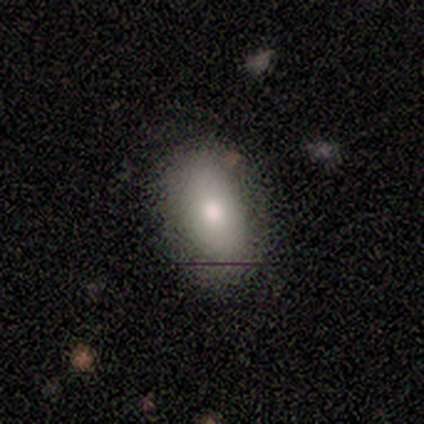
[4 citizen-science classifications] Overall: smooth (75%). How rounded: in between (100%). Merging: none (100%).